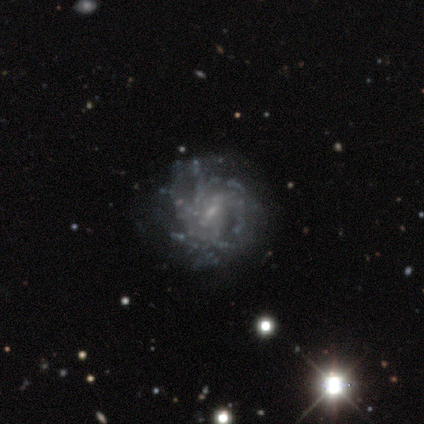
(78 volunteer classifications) Volunteers were most divided on "spiral winding": tight: 52%, medium: 32%, loose: 16%. More confident: edge-on disk — no (99%); smooth or featured — featured or disk (91%); spiral arms — yes (89%); bar — weak (73%); bulge size — small (67%); merging — none (64%); spiral arm count — can't tell (63%).